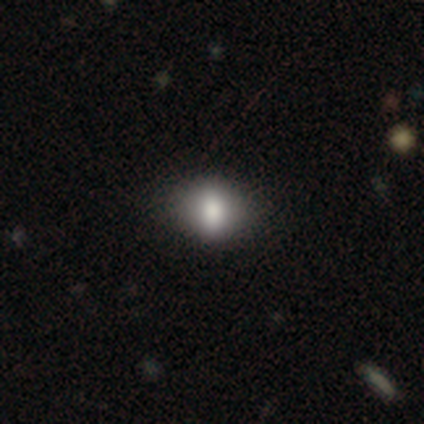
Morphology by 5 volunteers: This appears to be a smooth galaxy with no disk features (40%, tied with featured or disk) that is in between round and cigar-shaped (100%). Merging: none (50%).